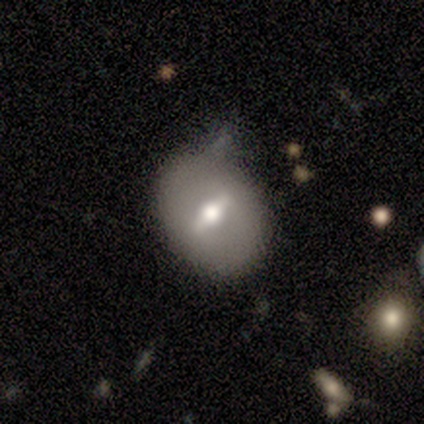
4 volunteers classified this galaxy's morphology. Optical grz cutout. It shows a featured or disk galaxy (75%) with a weak bar (67%), no spiral arms (100%) and a large central bulge (33%, tied with moderate and small). Merging: none (75%).